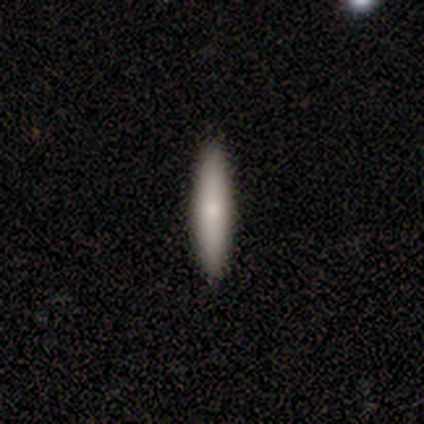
Overall: smooth (60%; featured or disk 40%). How rounded: cigar-shaped (100%). Merging: none (80%).